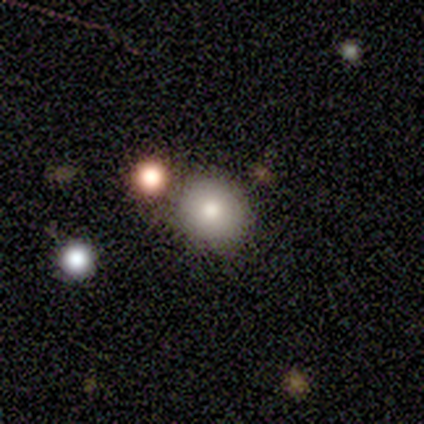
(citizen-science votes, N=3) This appears to be a smooth galaxy with no disk features (100%) that is round (100%). Merging: none (67%).